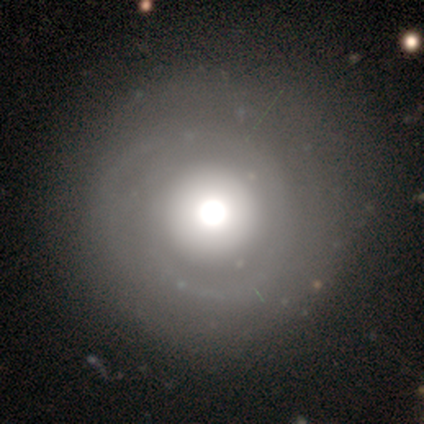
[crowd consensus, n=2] Overall: smooth (100%). How rounded: round (100%). Merging: none (100%).